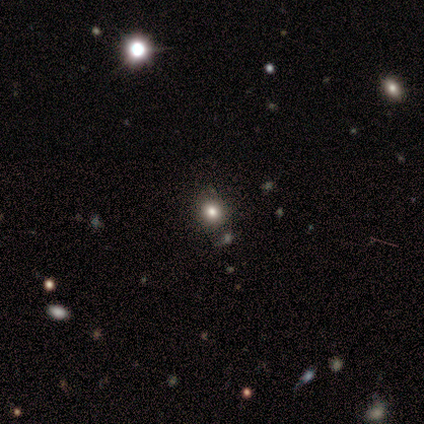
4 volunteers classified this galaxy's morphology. Q: Smooth or featured?
A: smooth (100%)
Q: How rounded?
A: round (75%); runner-up: in between (25%)
Q: Merging?
A: none (75%); runner-up: merger (25%)